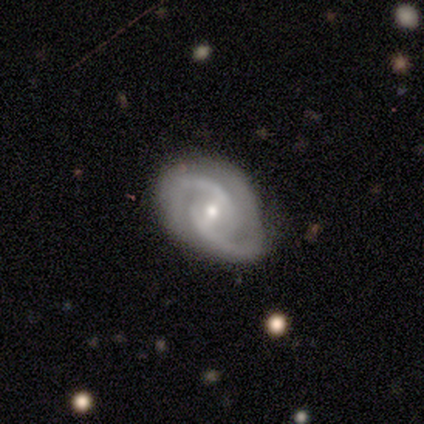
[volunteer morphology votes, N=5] Smooth or featured? featured or disk (100%)
Edge-on disk? no (100%)
Bar? weak (80%)
Spiral arms? yes (100%)
Spiral winding? medium (100%)
Spiral arm count? 2 (100%)
Bulge size? small (60%)
Merging? none (100%)